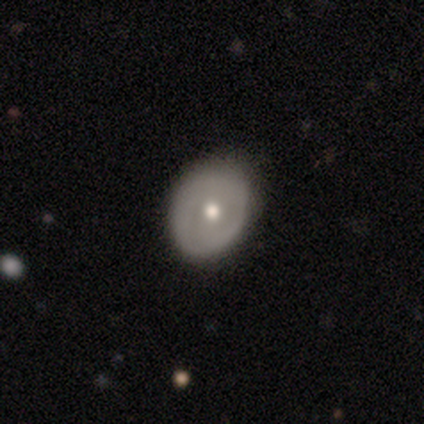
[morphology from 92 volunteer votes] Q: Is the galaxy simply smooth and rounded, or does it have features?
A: smooth — 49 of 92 (53%).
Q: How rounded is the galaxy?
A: in between — 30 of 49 (61%).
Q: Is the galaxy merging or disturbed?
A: none — 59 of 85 (69%).